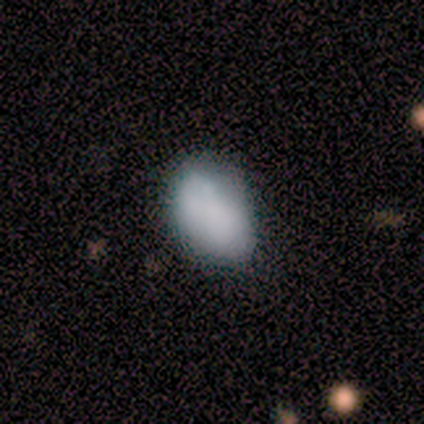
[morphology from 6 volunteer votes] Smooth or featured? 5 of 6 (83%) said smooth. How rounded? 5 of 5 (100%) said in between. Merging? 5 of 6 (83%) said none.